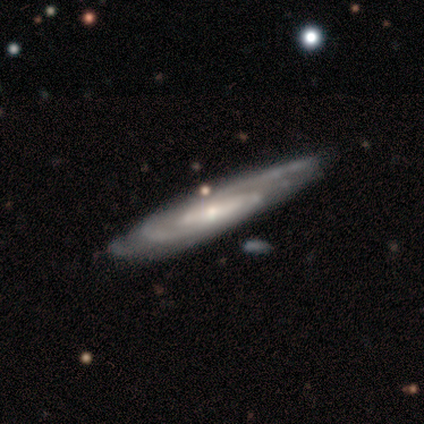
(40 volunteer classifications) A featured or disk galaxy (85%) with no bar (43%), 2 (43%) medium (48%) spiral arms (100%) and a small central bulge (65%).

Vote fractions:
- Smooth or featured? featured or disk: 85% / smooth: 10% / star or artifact: 5%
- Edge-on disk? no: 68% / yes: 32%
- Bar? no: 43% / weak: 39% / strong: 17%
- Spiral arms? yes: 100% / no: 0%
- Spiral winding? medium: 48% / tight: 43% / loose: 9%
- Spiral arm count? 2: 43% / can't tell: 35% / 3: 22% / 1: 0% / 4: 0% / more than 4: 0%
- Bulge size? small: 65% / moderate: 30% / large: 4% / dominant: 0% / none: 0%
- Merging? none: 71% / minor disturbance: 26% / merger: 3% / major disturbance: 0%